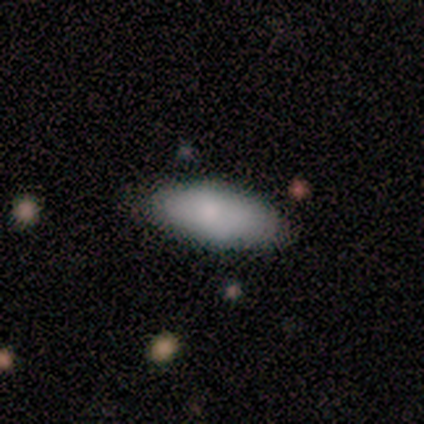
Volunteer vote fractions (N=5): Consensus on every question: smooth or featured — smooth (100%); how rounded — in between (100%); merging — none (100%).